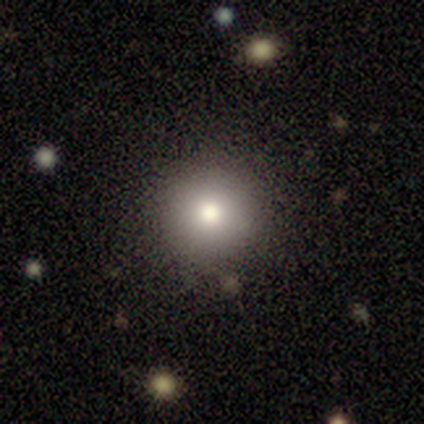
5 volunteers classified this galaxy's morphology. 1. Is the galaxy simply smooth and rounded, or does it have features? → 100% smooth, 0% featured or disk, 0% star or artifact.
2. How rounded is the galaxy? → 100% round, 0% in between, 0% cigar-shaped.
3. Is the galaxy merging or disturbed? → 100% none, 0% minor disturbance, 0% major disturbance, 0% merger.